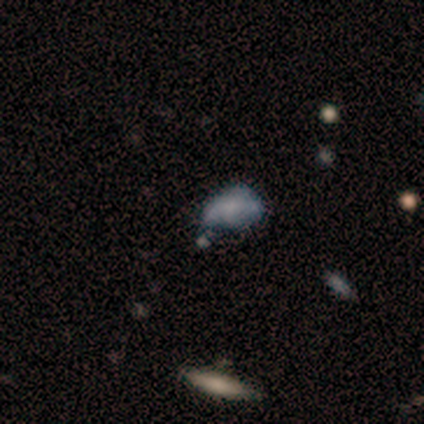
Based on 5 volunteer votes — Smooth or featured? featured or disk (60%)
Edge-on disk? no (100%)
Bar? no (100%)
Spiral arms? no (100%)
Bulge size? none (100%)
Merging? major disturbance (75%)